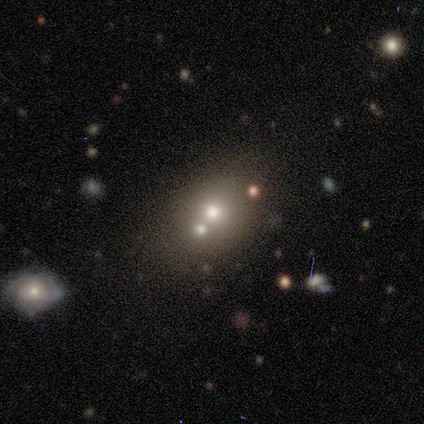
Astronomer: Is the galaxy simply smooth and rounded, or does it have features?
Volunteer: smooth — 80%.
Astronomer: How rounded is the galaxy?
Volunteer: round — 100%.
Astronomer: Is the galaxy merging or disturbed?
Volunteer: none — 60%.